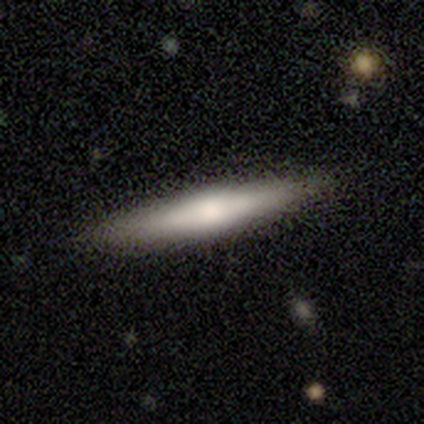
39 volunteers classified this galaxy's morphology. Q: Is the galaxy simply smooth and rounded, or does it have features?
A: smooth — 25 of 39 (64%).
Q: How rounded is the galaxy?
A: cigar-shaped — 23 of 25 (92%).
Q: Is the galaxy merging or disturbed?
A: none — 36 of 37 (97%).